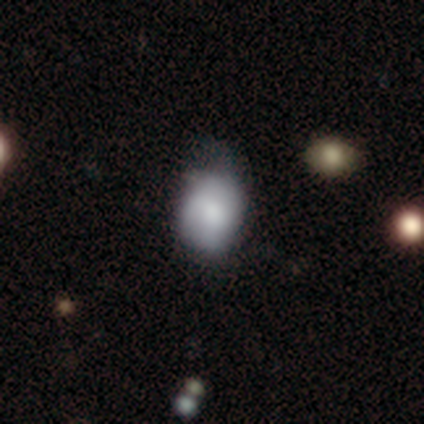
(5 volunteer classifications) smooth_or_featured: smooth (p=0.60) [alt: featured or disk p=0.40]
how_rounded: in between (p=1.00)
merging: none (p=0.80) [alt: minor disturbance p=0.20]